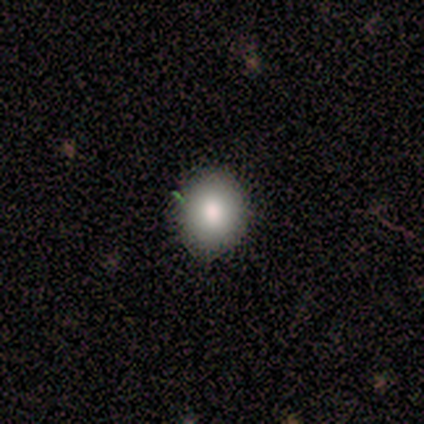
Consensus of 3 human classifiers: Smooth or featured?
  - smooth: 100% *
  - featured or disk: 0%
  - star or artifact: 0%
How rounded?
  - round: 67% *
  - in between: 33%
  - cigar-shaped: 0%
Merging?
  - none: 67% *
  - minor disturbance: 33%
  - major disturbance: 0%
  - merger: 0%